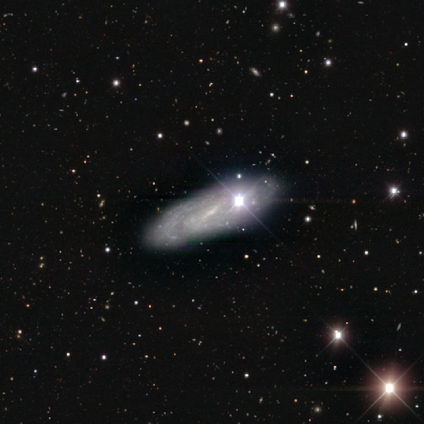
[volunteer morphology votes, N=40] This is clearly a featured or disk galaxy (82%). It is clearly not viewed edge-on (88%). Bar: possibly weak (52%). Spiral arm pattern: clearly yes (93%). Spiral arm count: likely 2 (70%). Spiral winding: possibly tight (59%). Central bulge: likely small (76%). Merging: possibly none (50%).